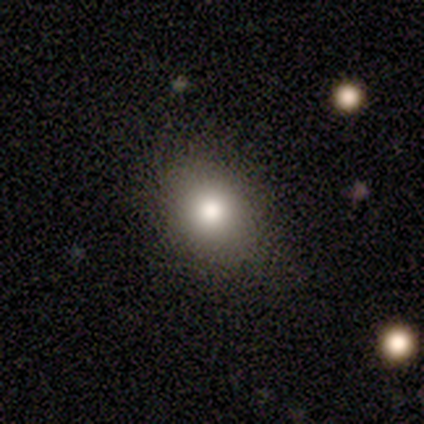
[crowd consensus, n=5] smooth-or-featured: smooth: 100% | featured or disk: 0% | star or artifact: 0%
  how-rounded: round: 60% | in between: 40% | cigar-shaped: 0%
  merging: none: 80% | minor disturbance: 20% | major disturbance: 0% | merger: 0%